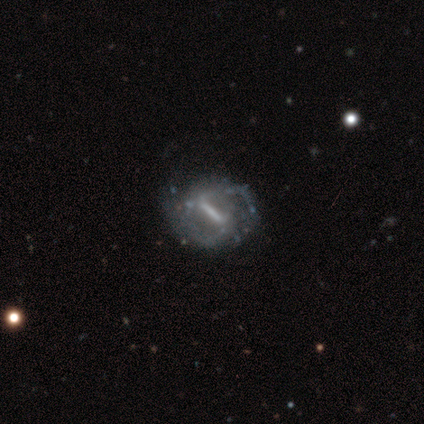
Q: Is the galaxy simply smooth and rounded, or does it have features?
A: featured or disk — 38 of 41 (93%).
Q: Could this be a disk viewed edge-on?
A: no — 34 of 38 (89%).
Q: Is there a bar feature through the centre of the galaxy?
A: strong — 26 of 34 (76%).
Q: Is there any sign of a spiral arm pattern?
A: yes — 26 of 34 (76%).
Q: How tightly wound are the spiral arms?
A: medium — 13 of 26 (50%).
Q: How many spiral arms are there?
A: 2 — 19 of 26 (73%).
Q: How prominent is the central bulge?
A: none — 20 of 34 (59%).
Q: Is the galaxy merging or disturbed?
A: none — 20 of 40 (50%).